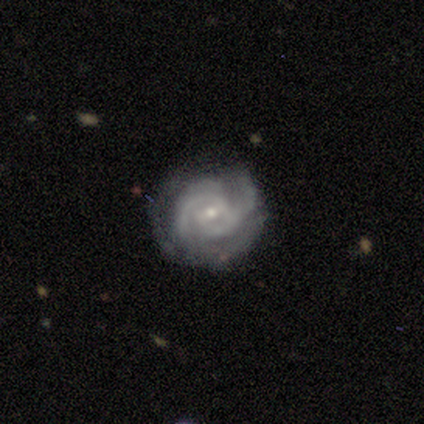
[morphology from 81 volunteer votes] This appears to be a featured or disk galaxy (90%) with a weak bar (60%), 2 (56%) tight (64%) spiral arms (99%) and a small central bulge (66%). Merging: none (58%).